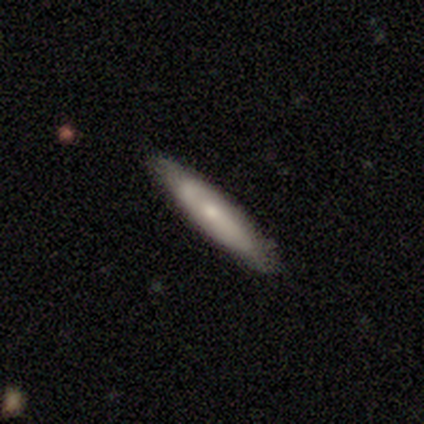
This appears to be a smooth galaxy with no disk features (42%, tied with featured or disk) that is cigar-shaped (100%). Merging: none (80%).